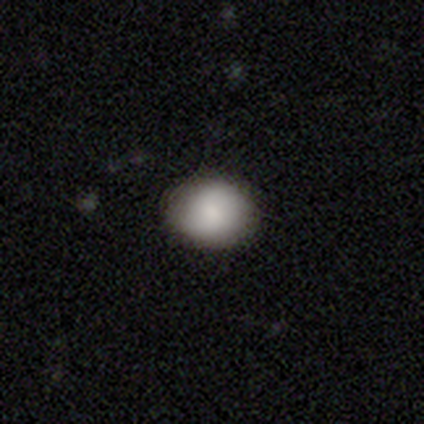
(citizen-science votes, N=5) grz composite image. It shows a smooth galaxy with no disk features (80%) that is round (100%). Merging: none (100%).